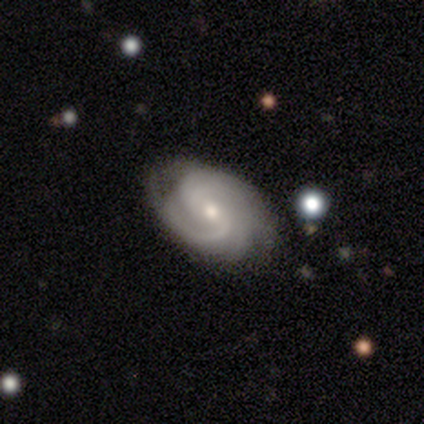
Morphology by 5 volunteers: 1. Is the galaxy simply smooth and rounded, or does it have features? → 100% featured or disk, 0% smooth, 0% star or artifact.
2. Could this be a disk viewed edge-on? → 100% no, 0% yes.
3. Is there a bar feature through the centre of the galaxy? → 80% no, 20% weak, 0% strong.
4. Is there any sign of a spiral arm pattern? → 100% yes, 0% no.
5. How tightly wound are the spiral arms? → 60% tight, 40% medium, 0% loose.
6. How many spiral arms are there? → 40% 3 (tied), 40% can't tell (tied), 20% 4, 0% 1, 0% 2, 0% more than 4.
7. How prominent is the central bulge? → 60% moderate, 40% small, 0% dominant, 0% large, 0% none.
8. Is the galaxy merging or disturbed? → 80% none, 20% minor disturbance, 0% major disturbance, 0% merger.